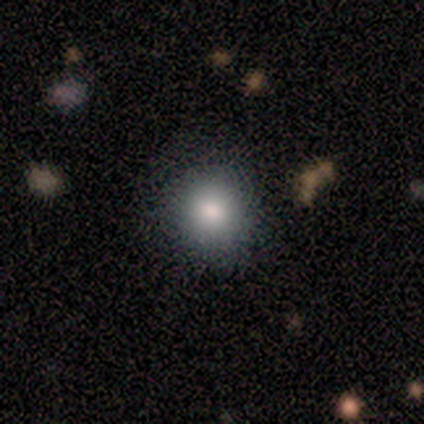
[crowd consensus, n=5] Smooth or featured? 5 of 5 (100%) said smooth. How rounded? 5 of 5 (100%) said round. Merging? 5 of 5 (100%) said none.